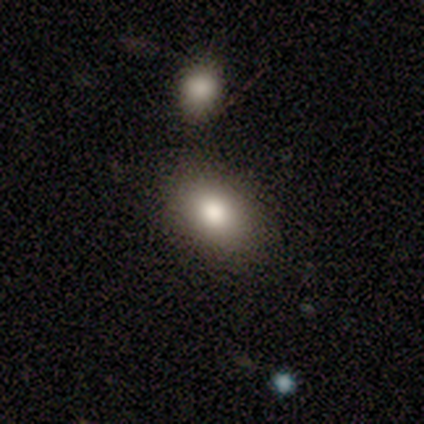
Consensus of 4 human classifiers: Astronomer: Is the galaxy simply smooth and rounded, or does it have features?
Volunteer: smooth — 75%.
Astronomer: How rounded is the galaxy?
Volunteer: in between — 100%.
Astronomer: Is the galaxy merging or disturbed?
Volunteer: none — 100%.